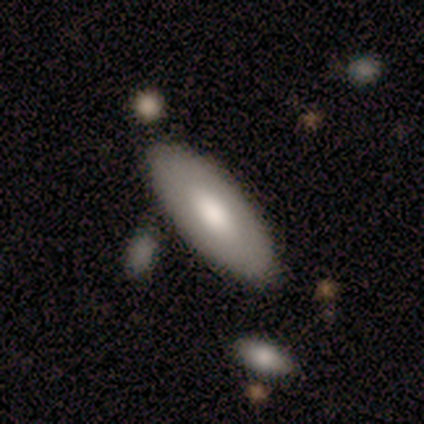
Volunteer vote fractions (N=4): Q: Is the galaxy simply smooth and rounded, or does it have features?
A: smooth — 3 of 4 (75%).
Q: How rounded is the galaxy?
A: in between — 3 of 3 (100%).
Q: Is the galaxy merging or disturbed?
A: none — 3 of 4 (75%).